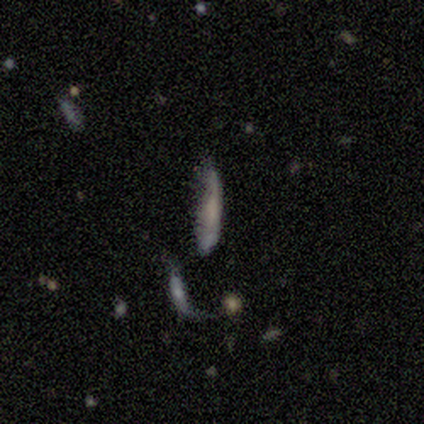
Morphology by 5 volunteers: Smooth or featured: smooth — 40% (tied with star or artifact — 40%)
How rounded: cigar-shaped — 100%
Merging: minor disturbance — 33% (tied with major disturbance — 33%; merger — 33%)